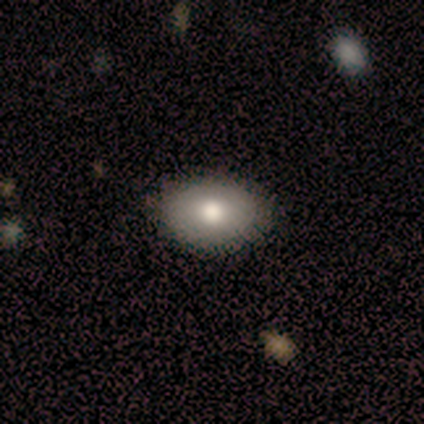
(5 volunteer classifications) Smooth or featured? 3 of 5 (60%) said smooth. How rounded? 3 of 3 (100%) said in between. Merging? 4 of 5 (80%) said none.